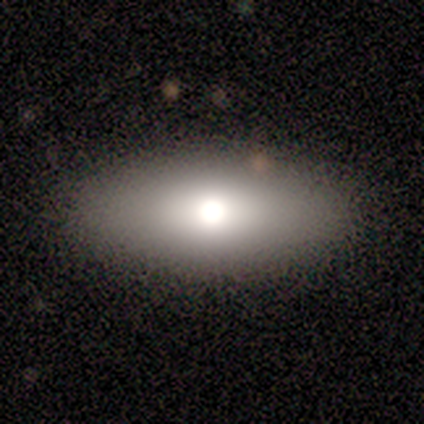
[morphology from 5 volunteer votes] Smooth or featured?
  - smooth: 60% *
  - featured or disk: 40%
  - star or artifact: 0%
How rounded?
  - in between: 100% *
  - round: 0%
  - cigar-shaped: 0%
Merging?
  - none: 80% *
  - minor disturbance: 20%
  - major disturbance: 0%
  - merger: 0%